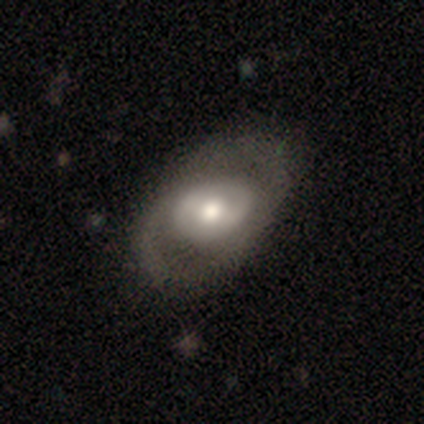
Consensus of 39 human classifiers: smooth-or-featured: featured or disk: 72% | smooth: 28% | star or artifact: 0%
  disk-edge-on: no: 93% | yes: 7%
    bar: weak: 46% | no: 35% | strong: 19%
    has-spiral-arms: no: 54% | yes: 46%
    bulge-size: moderate: 69% | large: 27% | none: 4% | dominant: 0% | small: 0%
  merging: none: 49% | minor disturbance: 10% | major disturbance: 10% | merger: 3%